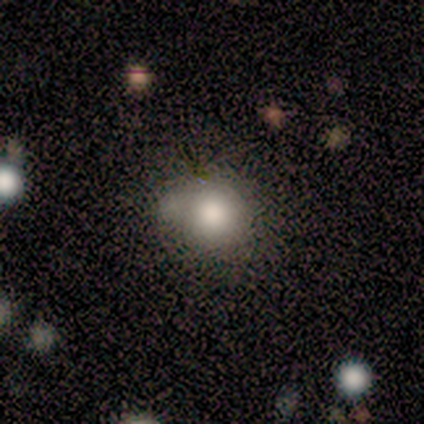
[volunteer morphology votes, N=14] Q: Smooth or featured?
A: smooth (79%); runner-up: featured or disk (14%)
Q: How rounded?
A: round (91%); runner-up: cigar-shaped (9%)
Q: Merging?
A: none (62%); runner-up: minor disturbance (38%)